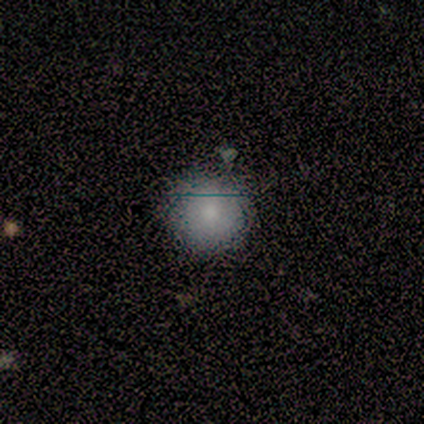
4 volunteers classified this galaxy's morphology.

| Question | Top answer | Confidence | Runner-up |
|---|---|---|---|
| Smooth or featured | smooth | 100% | — |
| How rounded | round | 100% | — |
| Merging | none | 100% | — |